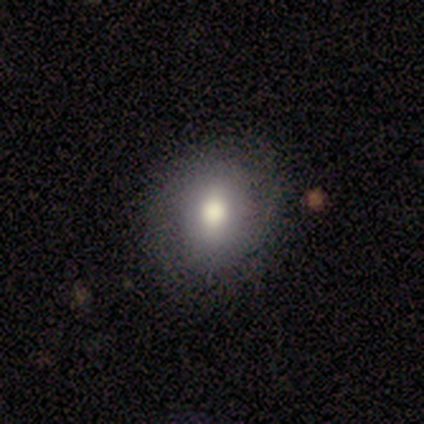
Overall: featured or disk (60%; smooth 40%). Edge-on disk: no (100%). Bar: no (100%). Spiral arms: no (100%). Bulge size: large (67%; moderate 33%). Merging: none (80%).